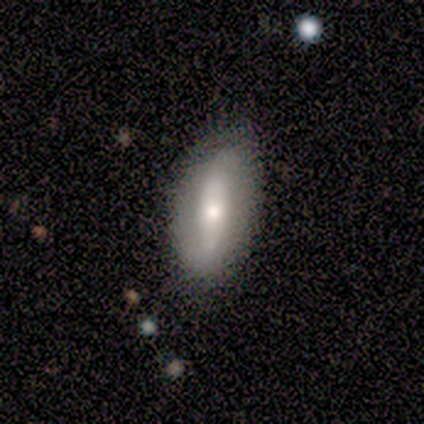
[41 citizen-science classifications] Smooth or featured? smooth (46%, tied with featured or disk)
How rounded? in between (74%)
Merging? none (76%)